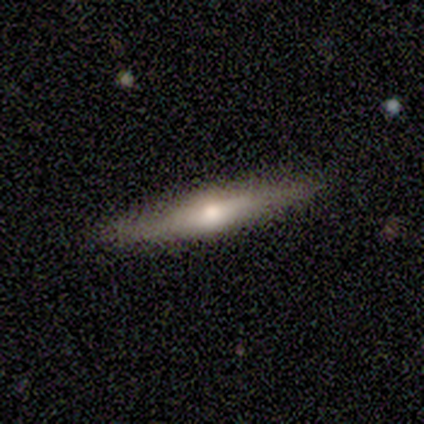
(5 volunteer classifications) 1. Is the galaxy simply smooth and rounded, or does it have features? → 40% smooth (tied), 40% featured or disk (tied), 20% star or artifact.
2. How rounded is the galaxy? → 50% in between (tied), 50% cigar-shaped (tied), 0% round.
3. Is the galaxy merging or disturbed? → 100% none, 0% minor disturbance, 0% major disturbance, 0% merger.